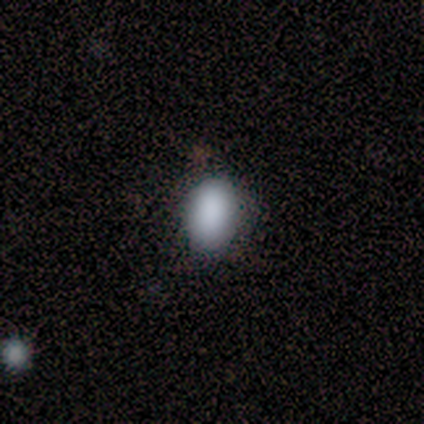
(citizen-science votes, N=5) smooth-or-featured: smooth: 80% | star or artifact: 20% | featured or disk: 0%
  how-rounded: in between: 75% | round: 25% | cigar-shaped: 0%
  merging: none: 100% | minor disturbance: 0% | major disturbance: 0% | merger: 0%